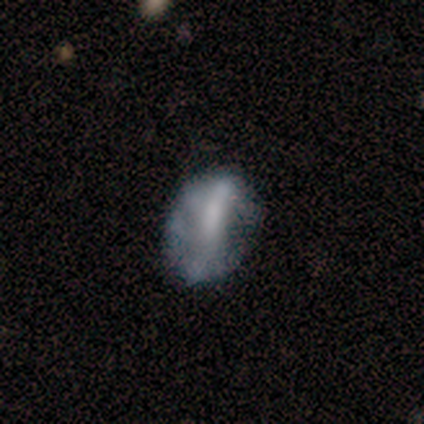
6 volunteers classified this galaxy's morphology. Volunteers were most divided on "bar": weak: 50%, strong: 25%, no: 25%. More confident: edge-on disk — no (100%); spiral arms — no (75%); merging — minor disturbance (75%); smooth or featured — featured or disk (67%); bulge size — small (50%).